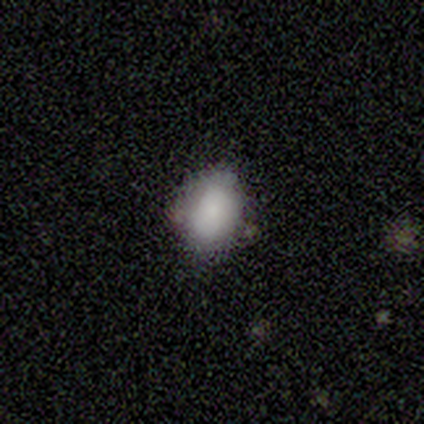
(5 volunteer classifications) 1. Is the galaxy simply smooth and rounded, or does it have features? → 100% smooth, 0% featured or disk, 0% star or artifact.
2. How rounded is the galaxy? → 60% in between, 40% round, 0% cigar-shaped.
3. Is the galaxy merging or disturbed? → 100% none, 0% minor disturbance, 0% major disturbance, 0% merger.